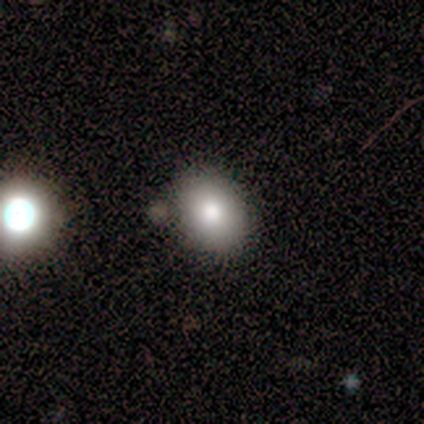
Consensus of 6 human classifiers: Smooth or featured: smooth — 83% (featured or disk — 17%)
How rounded: in between — 80% (round — 20%)
Merging: none — 83% (minor disturbance — 17%)